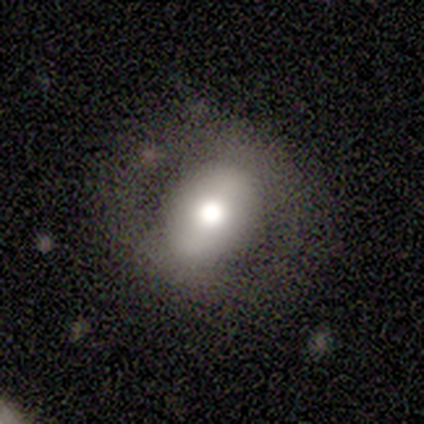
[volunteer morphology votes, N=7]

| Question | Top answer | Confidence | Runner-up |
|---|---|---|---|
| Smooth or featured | smooth | 57% | featured or disk (43%) |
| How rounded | in between | 100% | — |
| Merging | none | 71% | minor disturbance (29%) |